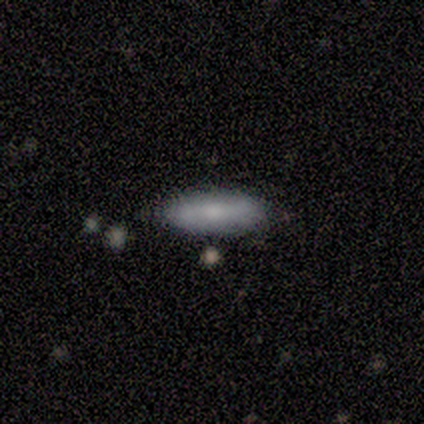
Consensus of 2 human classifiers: This appears to be a smooth galaxy with no disk features (100%) that is cigar-shaped (100%). Merging: none (100%).